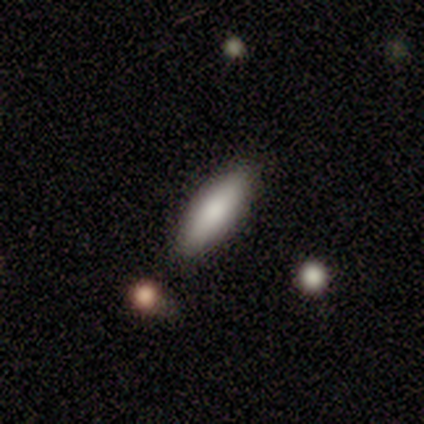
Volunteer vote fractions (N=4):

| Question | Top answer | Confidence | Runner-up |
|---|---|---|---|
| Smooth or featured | smooth | 75% | featured or disk (25%) |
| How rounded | cigar-shaped | 100% | — |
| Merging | minor disturbance | 50% | none (25%) |